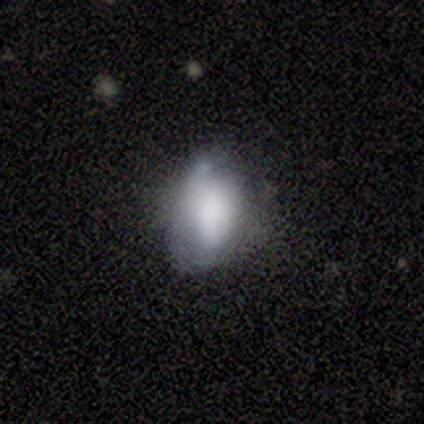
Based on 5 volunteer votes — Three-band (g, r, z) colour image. It shows a smooth galaxy with no disk features (100%) that is in between round and cigar-shaped (100%). Merging: minor disturbance (60%).